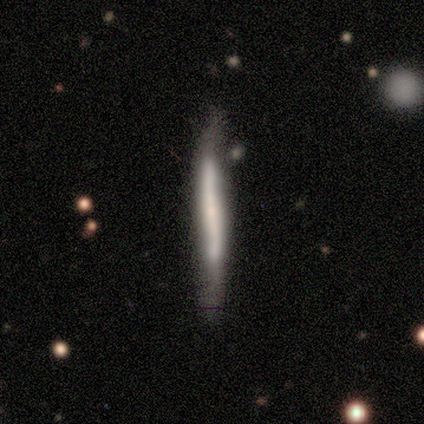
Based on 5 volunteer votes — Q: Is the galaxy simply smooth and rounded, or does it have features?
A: featured or disk — 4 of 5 (80%).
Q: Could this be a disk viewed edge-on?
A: yes — 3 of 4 (75%).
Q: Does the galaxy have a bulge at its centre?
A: none — 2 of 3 (67%).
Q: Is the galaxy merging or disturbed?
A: none — 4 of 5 (80%).